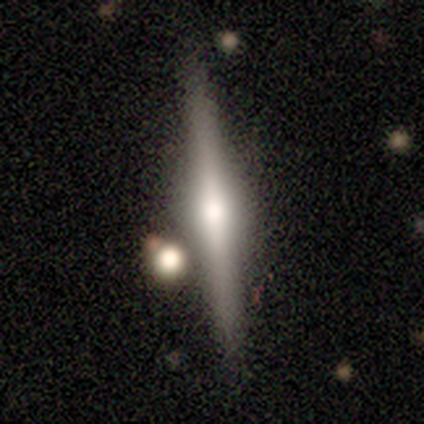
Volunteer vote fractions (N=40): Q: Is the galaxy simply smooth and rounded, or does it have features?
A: featured or disk — 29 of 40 (72%).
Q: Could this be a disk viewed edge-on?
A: yes — 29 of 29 (100%).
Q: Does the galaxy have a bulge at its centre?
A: rounded — 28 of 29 (97%).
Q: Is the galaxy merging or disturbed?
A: none — 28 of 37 (76%).